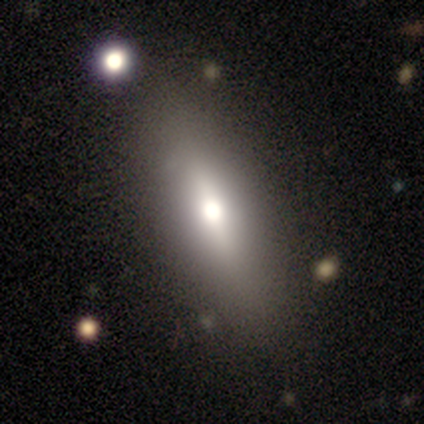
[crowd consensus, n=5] Morphology: type=smooth (60%); roundness=in between (67%); merging=none (100%).